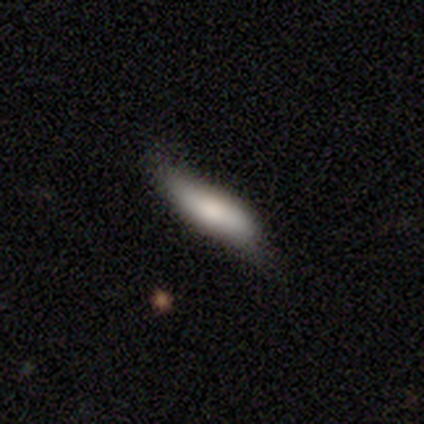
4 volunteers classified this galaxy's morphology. smooth-or-featured: smooth: 75% | star or artifact: 25% | featured or disk: 0%
  how-rounded: in between: 67% | cigar-shaped: 33% | round: 0%
  merging: none: 67% | major disturbance: 33% | minor disturbance: 0% | merger: 0%